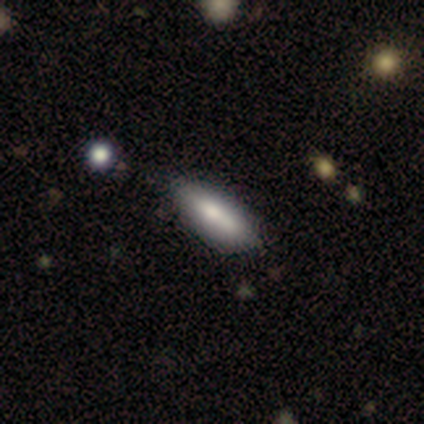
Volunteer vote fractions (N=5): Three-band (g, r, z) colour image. It shows a smooth galaxy with no disk features (100%) that is in between round and cigar-shaped (80%). Merging: minor disturbance (60%).